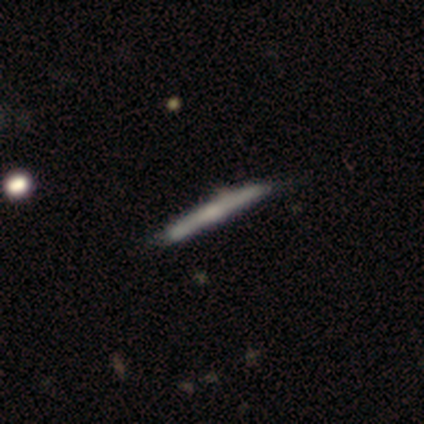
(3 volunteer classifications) smooth 33% (tied), featured or disk 33% (tied), star or artifact 33% (tied). Down the decision tree: how rounded — cigar-shaped (100%); merging — none (50%, tied with major disturbance).